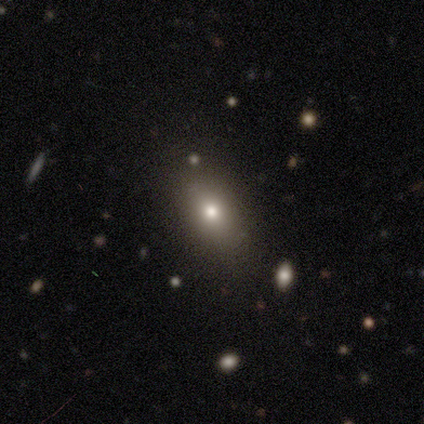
Smooth or featured?
  - smooth: 100% *
  - featured or disk: 0%
  - star or artifact: 0%
How rounded?
  - in between: 60% *
  - round: 20%
  - cigar-shaped: 20%
Merging?
  - none: 60% *
  - minor disturbance: 20%
  - merger: 20%
  - major disturbance: 0%